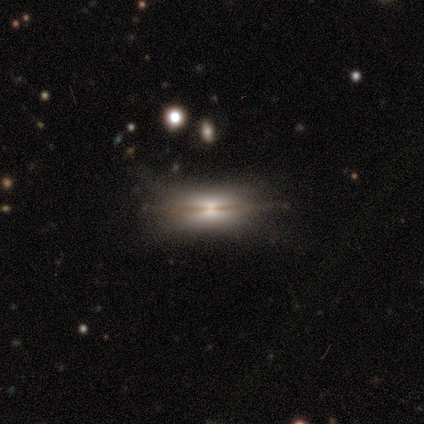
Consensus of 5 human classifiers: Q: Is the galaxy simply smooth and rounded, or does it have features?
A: featured or disk — 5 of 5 (100%).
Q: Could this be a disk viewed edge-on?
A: yes — 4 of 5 (80%).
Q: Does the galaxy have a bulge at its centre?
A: rounded — 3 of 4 (75%).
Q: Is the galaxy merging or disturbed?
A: none — 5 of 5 (100%).